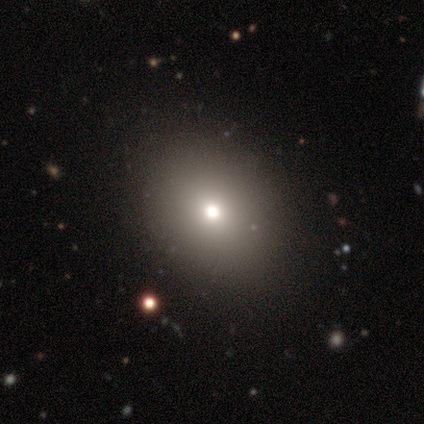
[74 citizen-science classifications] This is likely a smooth galaxy (68%). How rounded: likely in between (62%). Merging: marginally none (41%).